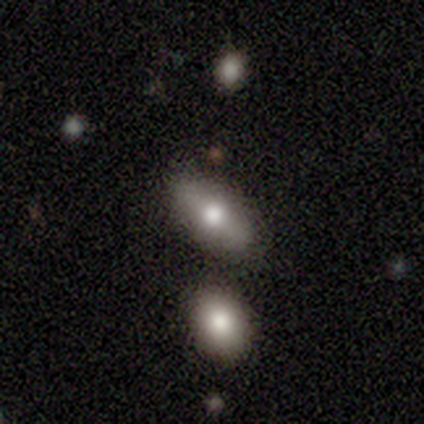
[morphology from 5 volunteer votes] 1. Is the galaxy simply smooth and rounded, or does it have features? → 40% smooth (tied), 40% featured or disk (tied), 20% star or artifact.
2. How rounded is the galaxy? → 50% in between (tied), 50% cigar-shaped (tied), 0% round.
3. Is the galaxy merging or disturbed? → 75% none, 25% minor disturbance, 0% major disturbance, 0% merger.